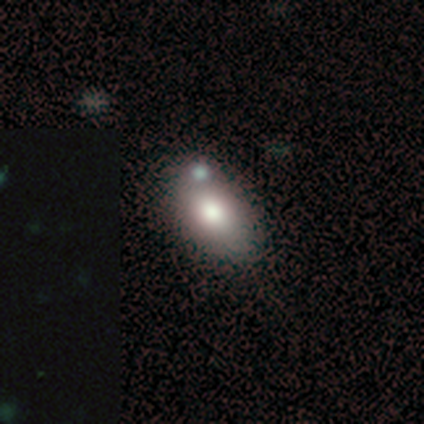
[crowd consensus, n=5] smooth-or-featured: smooth: 80% | featured or disk: 20% | star or artifact: 0%
  how-rounded: in between: 100% | round: 0% | cigar-shaped: 0%
  merging: none: 40% (tied) | merger: 40% (tied) | minor disturbance: 20% | major disturbance: 0%